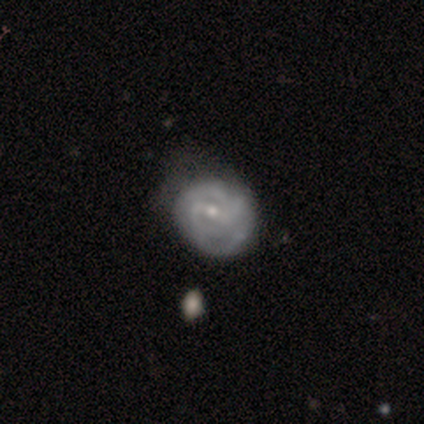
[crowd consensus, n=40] A featured or disk galaxy (78%) with a weak bar (61%), 2 (32%) tight (71%) spiral arms (90%) and a small central bulge (58%). Merging: none (33%).